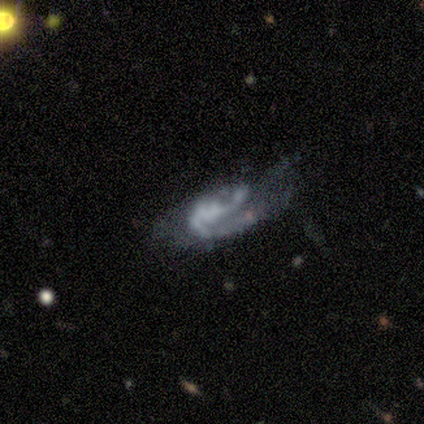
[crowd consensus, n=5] Morphology: type=featured or disk (60%); edge-on=no (100%); bar=no (67%); spiral arms=yes (67%); winding=medium (50%, tied with loose); arm count=2 (100%); bulge=none (67%); merging=minor disturbance (40%, tied with merger).